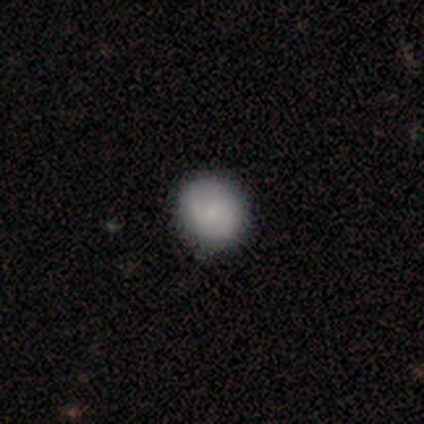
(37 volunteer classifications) Smooth or featured?
  - smooth: 68% *
  - featured or disk: 27%
  - star or artifact: 5%
How rounded?
  - round: 88% *
  - in between: 12%
  - cigar-shaped: 0%
Merging?
  - none: 77% *
  - minor disturbance: 6%
  - major disturbance: 0%
  - merger: 0%